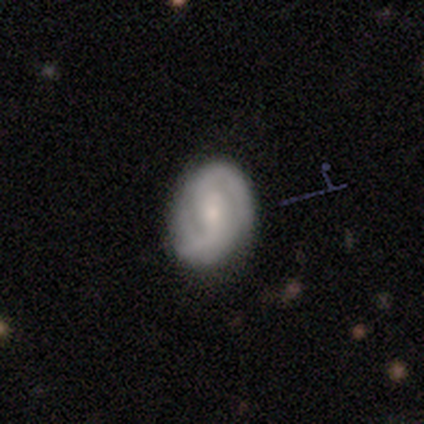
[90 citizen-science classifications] Smooth or featured? featured or disk (73%)
Edge-on disk? no (97%)
Bar? weak (53%)
Spiral arms? yes (94%)
Spiral winding? tight (57%)
Spiral arm count? 2 (80%)
Bulge size? small (64%)
Merging? none (80%)